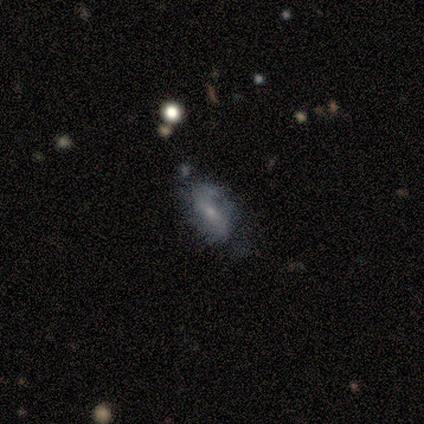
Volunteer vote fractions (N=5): Volunteers were most divided on "how rounded": in between: 75%, round: 25%, cigar-shaped: 0%. More confident: smooth or featured — smooth (80%); merging — none (80%).